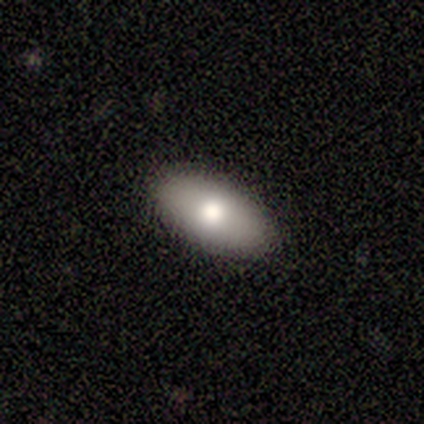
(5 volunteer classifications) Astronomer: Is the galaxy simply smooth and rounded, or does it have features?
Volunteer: smooth — 100%.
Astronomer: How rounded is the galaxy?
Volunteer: in between — 100%.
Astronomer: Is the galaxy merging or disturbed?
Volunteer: none — 100%.